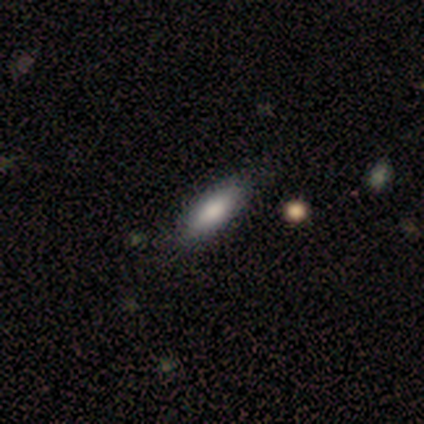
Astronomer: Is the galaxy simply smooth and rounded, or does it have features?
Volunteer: smooth — 100%.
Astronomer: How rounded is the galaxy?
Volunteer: in between — 60% (runner-up: cigar-shaped, 40%).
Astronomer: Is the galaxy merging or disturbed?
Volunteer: none — 100%.